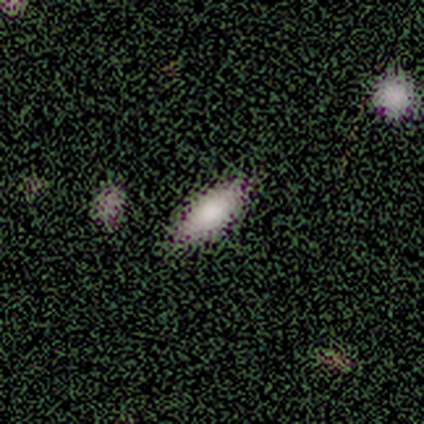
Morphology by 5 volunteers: smooth 100%, featured or disk 0%, star or artifact 0%. Down the decision tree: how rounded — in between (100%); merging — none (100%).